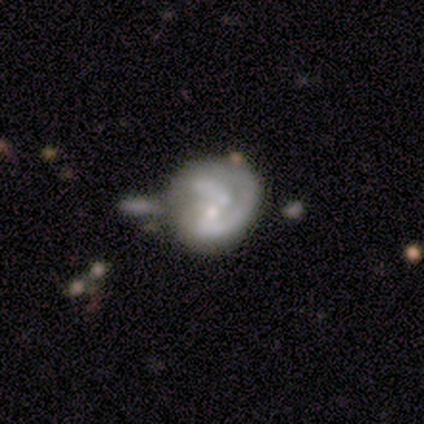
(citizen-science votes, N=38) Overall: featured or disk (79%). Edge-on disk: no (100%). Bar: no (60%; weak 37%). Spiral arms: yes (60%; no 40%). Spiral arm count: 2 (50%; can't tell 28%). Spiral winding: tight (50%; medium 28%). Bulge size: small (57%; moderate 20%). Merging: merger (29%; minor disturbance 26%).